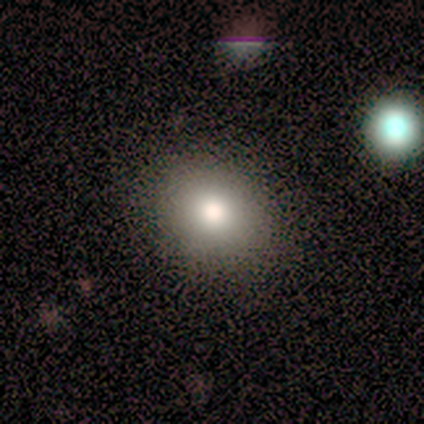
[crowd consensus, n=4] Overall: smooth (100%). How rounded: round (100%). Merging: none (75%).